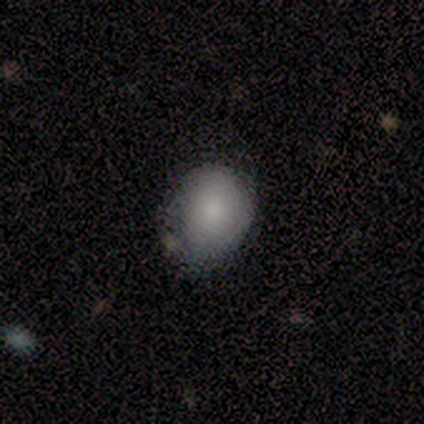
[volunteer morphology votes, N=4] This appears to be a smooth galaxy with no disk features (100%) that is round (50%, tied with in between). Merging: none (50%, tied with minor disturbance).